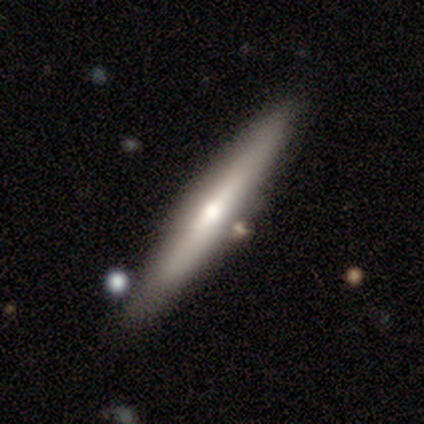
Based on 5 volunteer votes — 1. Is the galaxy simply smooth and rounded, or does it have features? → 60% featured or disk, 40% smooth, 0% star or artifact.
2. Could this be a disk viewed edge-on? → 100% yes, 0% no.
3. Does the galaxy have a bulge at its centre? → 100% rounded, 0% boxy, 0% none.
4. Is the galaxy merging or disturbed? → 100% none, 0% minor disturbance, 0% major disturbance, 0% merger.